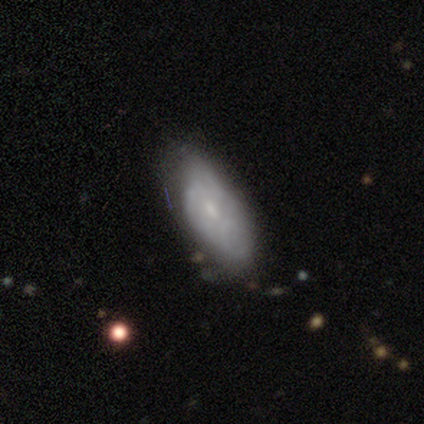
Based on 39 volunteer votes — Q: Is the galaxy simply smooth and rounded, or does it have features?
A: smooth — 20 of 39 (51%).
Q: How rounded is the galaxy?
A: in between — 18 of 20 (90%).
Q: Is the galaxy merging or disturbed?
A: minor disturbance — 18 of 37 (49%).